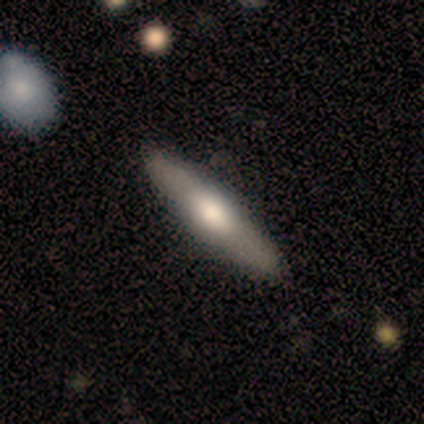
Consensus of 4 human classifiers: Volunteers were most divided on "smooth or featured" (2-way tie): smooth: 50%, featured or disk: 50%, star or artifact: 0%. More confident: how rounded — cigar-shaped (100%); merging — none (100%).